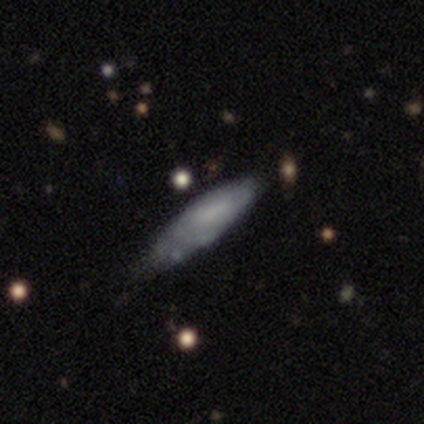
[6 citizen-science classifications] Volunteers were most divided on "smooth or featured": smooth: 67%, star or artifact: 33%, featured or disk: 0%. More confident: how rounded — cigar-shaped (100%); merging — none (75%).